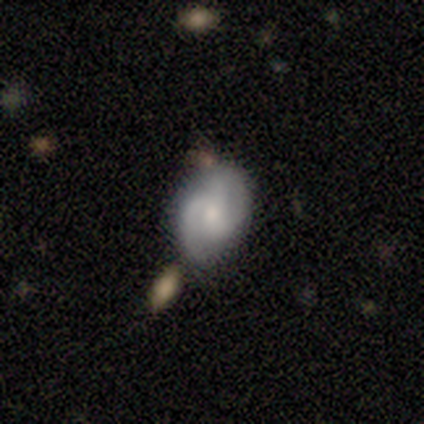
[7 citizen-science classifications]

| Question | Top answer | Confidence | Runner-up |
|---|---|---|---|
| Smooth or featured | featured or disk | 71% | smooth (29%) |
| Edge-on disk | no | 100% | — |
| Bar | no | 60% | weak (40%) |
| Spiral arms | yes | 80% | no (20%) |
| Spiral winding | medium | 75% | loose (25%) |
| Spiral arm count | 2 | 75% | 3 (25%) |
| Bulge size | moderate | 60% | small (40%) |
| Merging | none | 71% | minor disturbance (14%) |